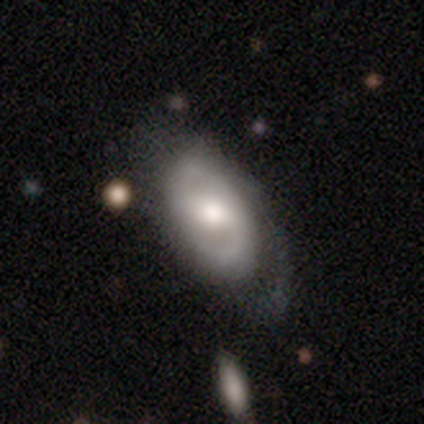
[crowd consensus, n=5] Smooth or featured? 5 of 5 (100%) said featured or disk. Edge-on disk? 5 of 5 (100%) said no. Bar? 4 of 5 (80%) said weak. Spiral arms? 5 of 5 (100%) said yes. Spiral winding? 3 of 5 (60%) said medium. Spiral arm count? 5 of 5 (100%) said 2. Bulge size? 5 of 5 (100%) said moderate. Merging? 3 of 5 (60%) said minor disturbance.